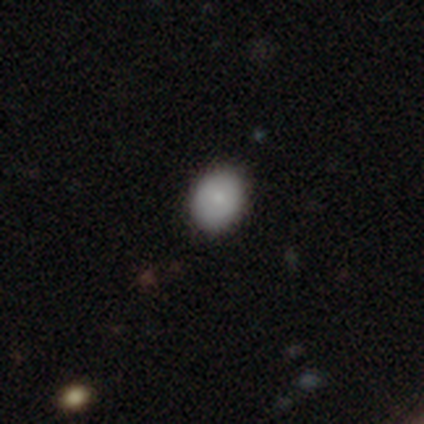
Smooth or featured? 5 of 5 (100%) said smooth. How rounded? 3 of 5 (60%) said in between. Merging? 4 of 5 (80%) said none.